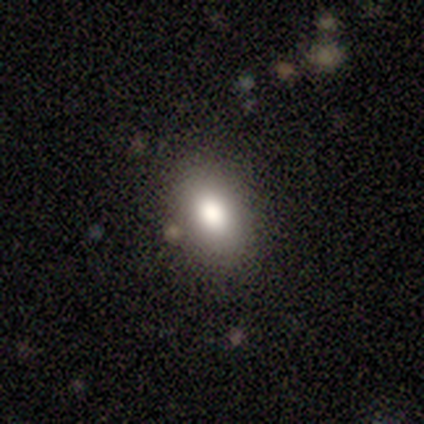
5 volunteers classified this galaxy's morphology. type=smooth (80%); roundness=in between (75%); merging=none (80%).